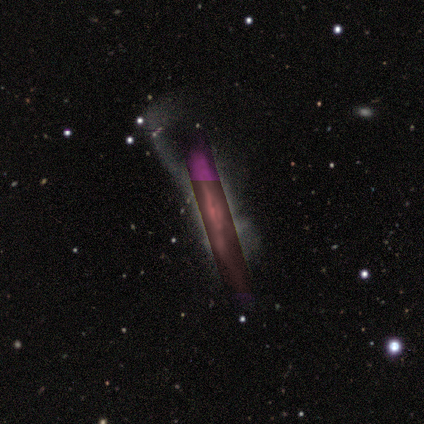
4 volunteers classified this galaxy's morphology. Smooth or featured: star or artifact — 75% (smooth — 25%)